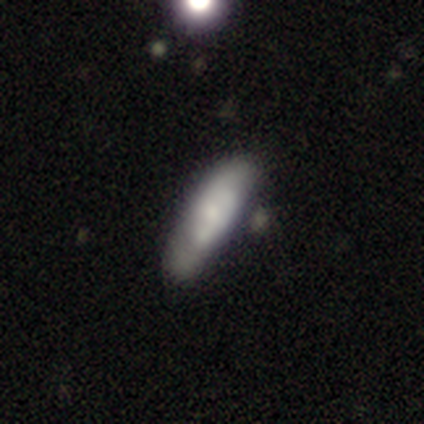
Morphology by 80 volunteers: smooth 55%, featured or disk 44%, star or artifact 1%. Down the decision tree: how rounded — in between (50%, tied with cigar-shaped); merging — minor disturbance (20%).